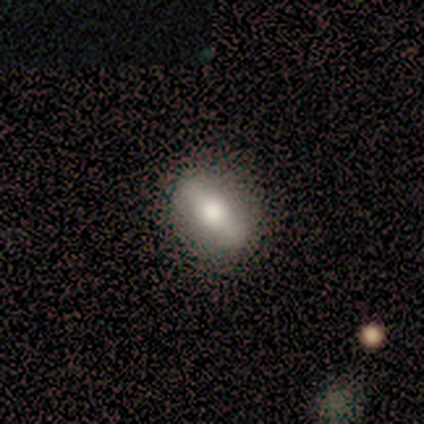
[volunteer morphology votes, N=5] type=smooth (60%); roundness=in between (100%); merging=none (100%).